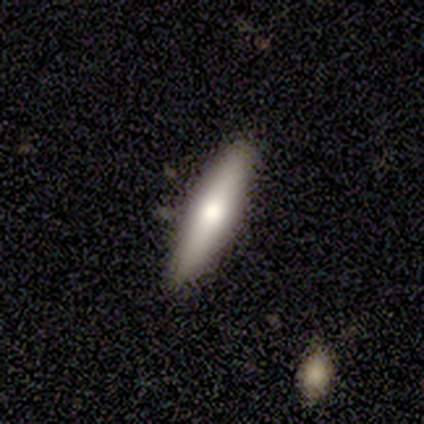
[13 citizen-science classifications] A smooth galaxy with no disk features (77%) that is cigar-shaped (90%). Merging: none (92%).